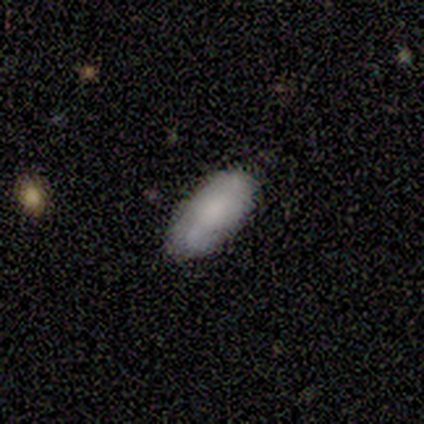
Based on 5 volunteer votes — This is clearly a smooth galaxy (80%). How rounded: clearly in between (100%). Merging: clearly none (100%).